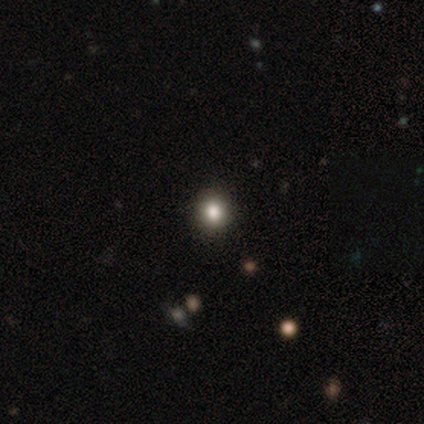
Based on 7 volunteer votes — This appears to be a smooth galaxy with no disk features (43%, tied with star or artifact) that is round (100%). Merging: none (75%).